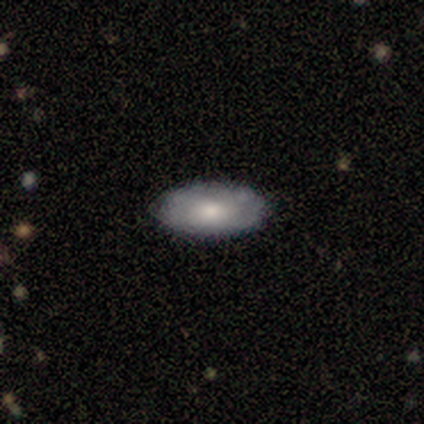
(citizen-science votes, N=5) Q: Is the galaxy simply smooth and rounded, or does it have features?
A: featured or disk — 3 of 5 (60%).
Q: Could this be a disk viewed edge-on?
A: yes — 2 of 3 (67%).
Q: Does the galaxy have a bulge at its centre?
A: rounded — 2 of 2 (100%).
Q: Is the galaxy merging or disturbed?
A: none — 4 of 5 (80%).